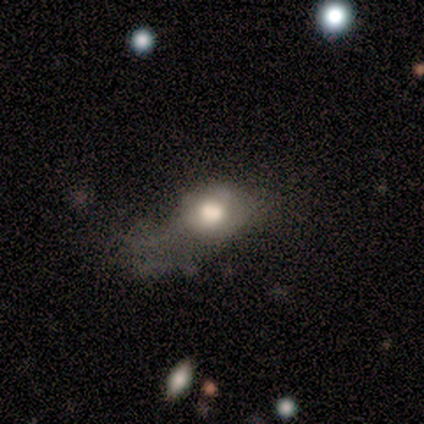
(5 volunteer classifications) Smooth or featured? 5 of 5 (100%) said smooth. How rounded? 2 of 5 (40%, tied with in between) said round. Merging? 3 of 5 (60%) said major disturbance.